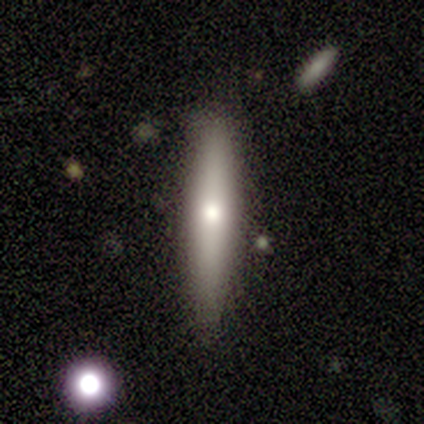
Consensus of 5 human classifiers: Smooth or featured? smooth (80%)
How rounded? cigar-shaped (100%)
Merging? none (80%)